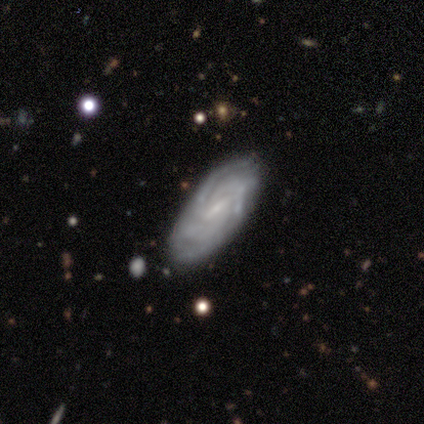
featured or disk 80%, smooth 20%, star or artifact 0%. Down the decision tree: edge-on disk — no (100%); bar — strong (50%); spiral arms — yes (100%); spiral arm count — can't tell (75%); spiral winding — tight (50%); bulge size — small (50%); merging — none (60%).